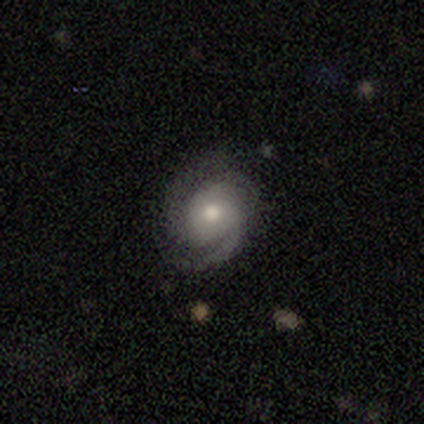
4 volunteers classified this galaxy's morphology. This appears to be a featured or disk galaxy (100%) with no bar (50%), 2 (50%) tight (100%) spiral arms (100%) and a dominant central bulge (25%, tied with large, moderate and small). Merging: none (100%).